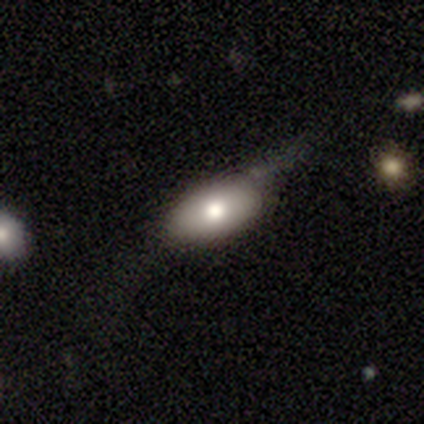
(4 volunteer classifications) Smooth or featured? smooth (75%)
How rounded? in between (67%)
Merging? none (50%, tied with minor disturbance)